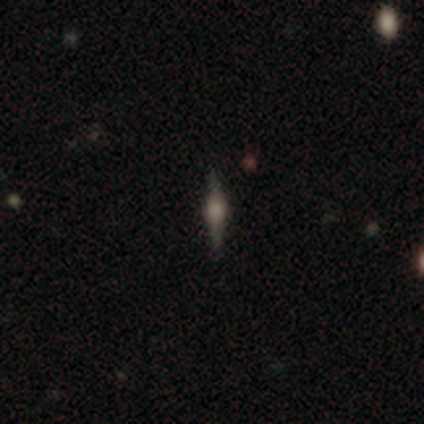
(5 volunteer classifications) Smooth or featured?
  - featured or disk: 60% *
  - smooth: 20%
  - star or artifact: 20%
Edge-on disk?
  - yes: 100% *
  - no: 0%
Edge-on bulge?
  - rounded: 67% *
  - boxy: 33%
  - none: 0%
Merging?
  - none: 100% *
  - minor disturbance: 0%
  - major disturbance: 0%
  - merger: 0%